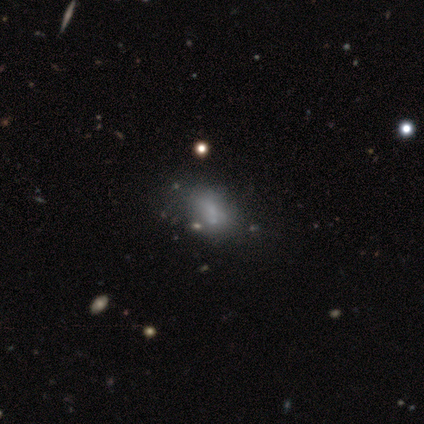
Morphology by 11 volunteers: Q: Smooth or featured?
A: smooth (91%); runner-up: featured or disk (9%)
Q: How rounded?
A: in between (70%); runner-up: round (20%)
Q: Merging?
A: none (36%); tied with: minor disturbance (36%)